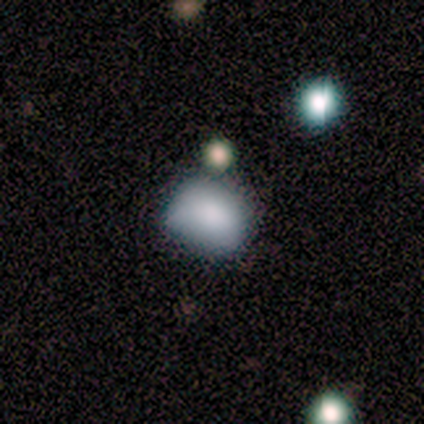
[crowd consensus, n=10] Morphology: type=smooth (70%); roundness=in between (71%); merging=minor disturbance (56%).